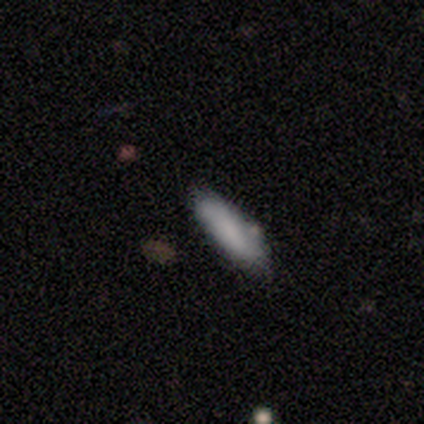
This is clearly a smooth galaxy (80%). How rounded: likely cigar-shaped (75%). Merging: clearly none (100%).